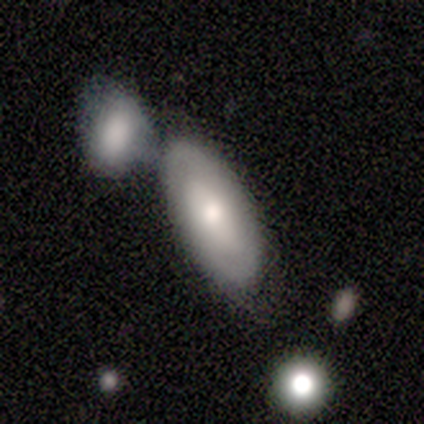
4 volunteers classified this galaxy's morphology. Smooth or featured? 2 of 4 (50%, tied with featured or disk) said smooth. How rounded? 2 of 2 (100%) said in between. Merging? 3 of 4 (75%) said none.